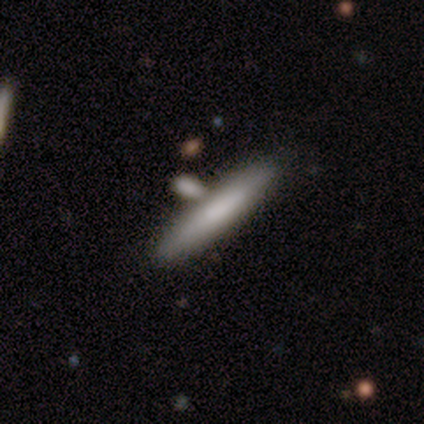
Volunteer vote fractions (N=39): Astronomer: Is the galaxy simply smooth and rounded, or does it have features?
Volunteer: smooth — 82%.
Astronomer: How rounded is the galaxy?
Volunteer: cigar-shaped — 97%.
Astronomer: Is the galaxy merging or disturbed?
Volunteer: none — 54% (runner-up: merger, 30%).